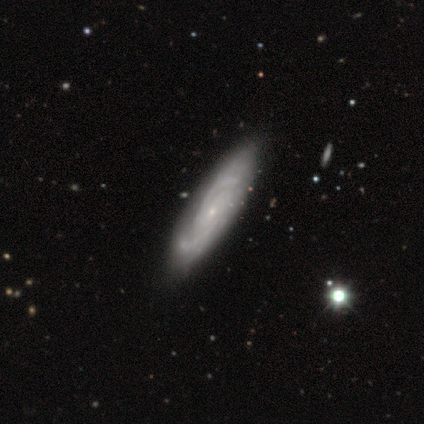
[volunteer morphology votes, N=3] A featured or disk galaxy (100%) with a strong bar (33%, tied with weak and no), 2 (67%) tight (67%) spiral arms (100%) and a small central bulge (67%).

Vote fractions:
- Smooth or featured? featured or disk: 100% / smooth: 0% / star or artifact: 0%
- Edge-on disk? no: 100% / yes: 0%
- Bar? strong: 33% (tied) / weak: 33% (tied) / no: 33% (tied)
- Spiral arms? yes: 100% / no: 0%
- Spiral winding? tight: 67% / medium: 33% / loose: 0%
- Spiral arm count? 2: 67% / 3: 33% / 1: 0% / 4: 0% / more than 4: 0% / can't tell: 0%
- Bulge size? small: 67% / moderate: 33% / dominant: 0% / large: 0% / none: 0%
- Merging? none: 67% / merger: 33% / minor disturbance: 0% / major disturbance: 0%